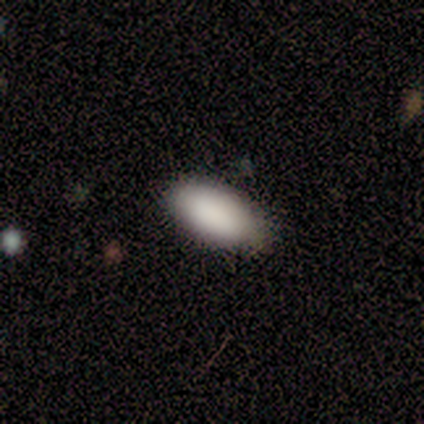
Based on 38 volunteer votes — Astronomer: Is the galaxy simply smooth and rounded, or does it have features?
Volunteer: smooth — 84%.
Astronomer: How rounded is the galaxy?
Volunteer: in between — 94%.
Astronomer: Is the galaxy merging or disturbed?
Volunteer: none — 79%.